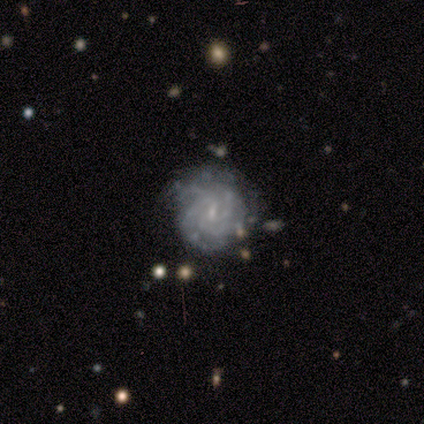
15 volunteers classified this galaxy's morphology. Overall: featured or disk (87%). Edge-on disk: no (100%). Bar: weak (62%; no 31%). Spiral arms: yes (92%). Spiral arm count: 3 (42%; can't tell 33%). Spiral winding: tight (67%). Bulge size: small (85%). Merging: none (93%).